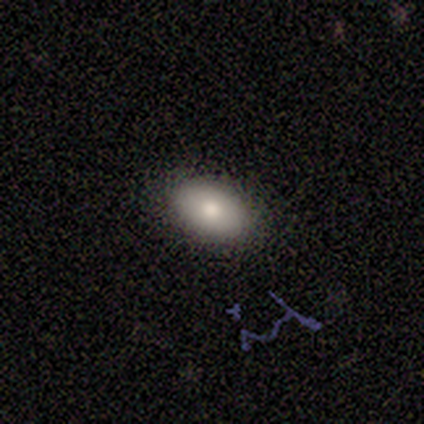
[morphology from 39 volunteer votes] Smooth or featured? 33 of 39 (85%) said smooth. How rounded? 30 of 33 (91%) said in between. Merging? 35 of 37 (95%) said none.